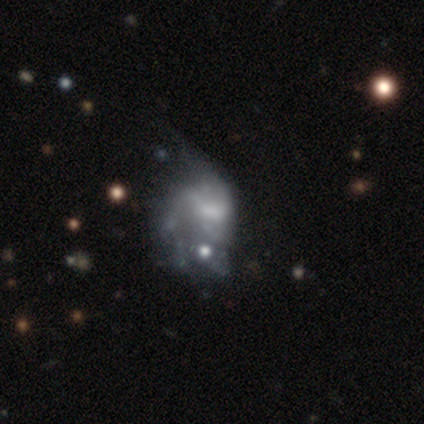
Volunteers were most divided on "spiral arms": no: 60%, yes: 40%. More confident: edge-on disk — no (100%); smooth or featured — featured or disk (83%); bar — no (80%); merging — major disturbance (67%); bulge size — moderate (60%).